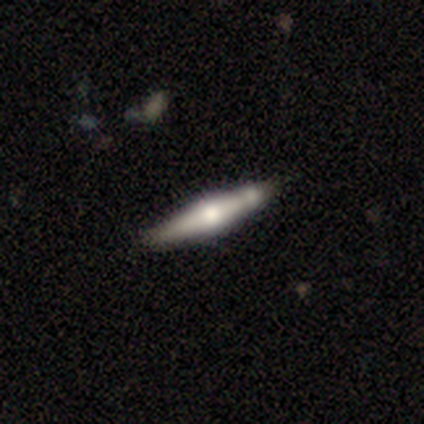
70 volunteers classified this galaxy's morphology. Smooth or featured: featured or disk — 79% (smooth — 20%)
Edge-on disk: yes — 93% (no — 7%)
Edge-on bulge: rounded — 90% (boxy — 6%)
Merging: none — 65% (minor disturbance — 16%)